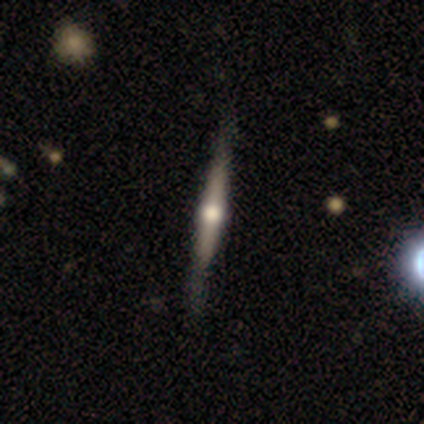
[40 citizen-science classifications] Smooth or featured? featured or disk (80%)
Edge-on disk? yes (100%)
Edge-on bulge? rounded (88%)
Merging? none (92%)